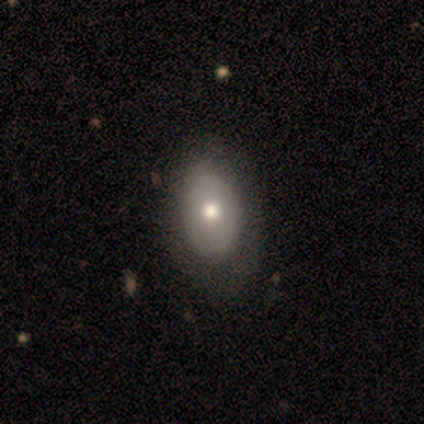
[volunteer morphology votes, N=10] smooth-or-featured: smooth: 40% (tied) | featured or disk: 40% (tied) | star or artifact: 20%
  how-rounded: in between: 100% | round: 0% | cigar-shaped: 0%
  merging: none: 75% | minor disturbance: 25% | major disturbance: 0% | merger: 0%